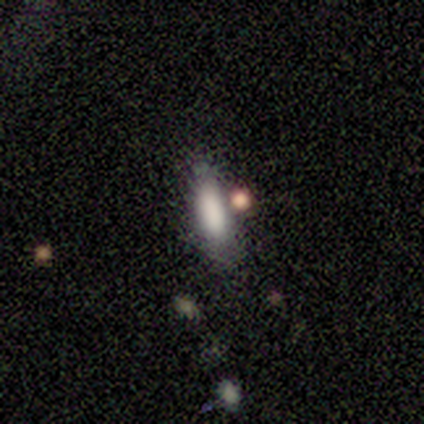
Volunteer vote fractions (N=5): smooth_or_featured: smooth (p=0.80) [alt: star or artifact p=0.20]
how_rounded: in between (p=1.00)
merging: none (p=0.75) [alt: major disturbance p=0.25]